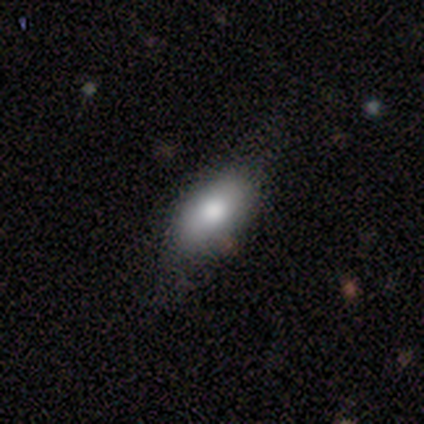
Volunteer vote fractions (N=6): smooth 100%, featured or disk 0%, star or artifact 0%. Down the decision tree: how rounded — in between (83%); merging — none (67%).